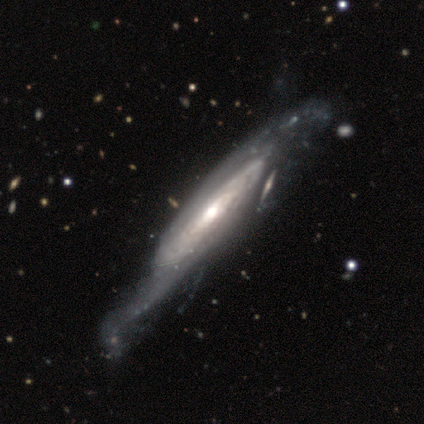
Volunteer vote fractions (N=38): Smooth or featured? featured or disk (92%)
Edge-on disk? no (69%)
Bar? no (62%)
Spiral arms? yes (92%)
Spiral winding? tight (45%)
Spiral arm count? can't tell (59%)
Bulge size? moderate (62%)
Merging? minor disturbance (29%)